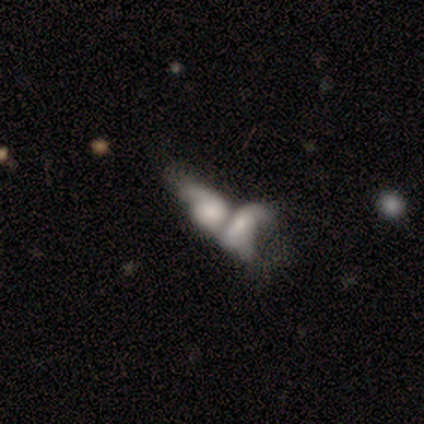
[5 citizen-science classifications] Smooth or featured?
  - featured or disk: 60% *
  - smooth: 40%
  - star or artifact: 0%
Edge-on disk?
  - no: 100% *
  - yes: 0%
Bar?
  - no: 67% *
  - weak: 33%
  - strong: 0%
Spiral arms?
  - no: 100% *
  - yes: 0%
Bulge size?
  - moderate: 33% * (tied)
  - small: 33% * (tied)
  - none: 33% * (tied)
  - dominant: 0%
  - large: 0%
Merging?
  - merger: 60% *
  - none: 20%
  - major disturbance: 20%
  - minor disturbance: 0%